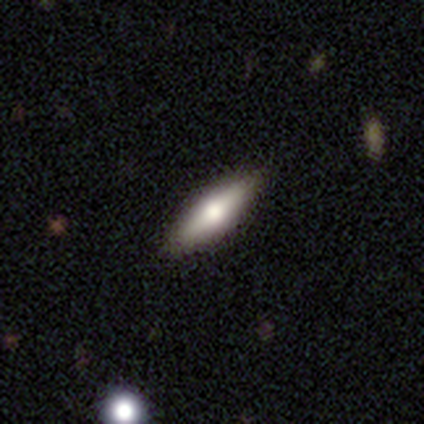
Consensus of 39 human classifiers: Volunteers were most divided on "smooth or featured": smooth: 49%, featured or disk: 44%, star or artifact: 8%. More confident: merging — none (94%); how rounded — cigar-shaped (53%).